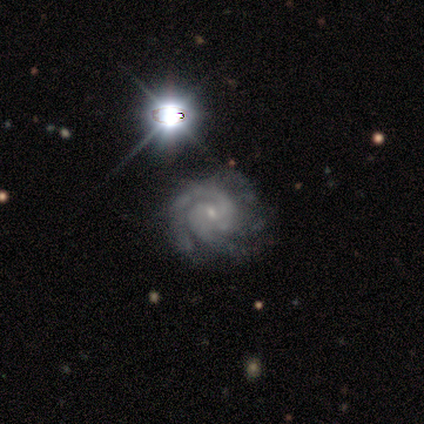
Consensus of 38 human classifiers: Q: Smooth or featured?
A: featured or disk (74%); runner-up: star or artifact (24%)
Q: Edge-on disk?
A: no (96%); runner-up: yes (4%)
Q: Bar?
A: no (52%); runner-up: weak (44%)
Q: Spiral arms?
A: yes (100%)
Q: Spiral winding?
A: tight (59%); runner-up: medium (22%)
Q: Spiral arm count?
A: 2 (74%); runner-up: 3 (15%)
Q: Bulge size?
A: small (85%); runner-up: moderate (7%)
Q: Merging?
A: none (76%); runner-up: minor disturbance (17%)